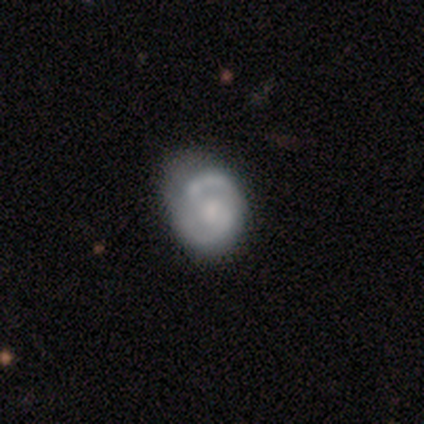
Morphology: type=featured or disk (71%); edge-on=no (92%); bar=weak (48%); spiral arms=yes (91%); winding=medium (67%); arm count=2 (95%); bulge=moderate (43%); merging=none (61%).